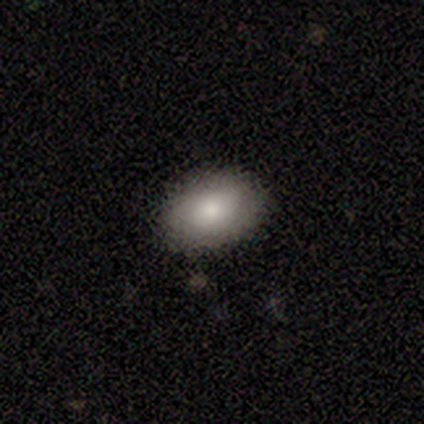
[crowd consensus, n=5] smooth_or_featured: smooth (p=0.80) [alt: featured or disk p=0.20]
how_rounded: in between (p=1.00)
merging: none (p=0.60) [alt: minor disturbance p=0.20]